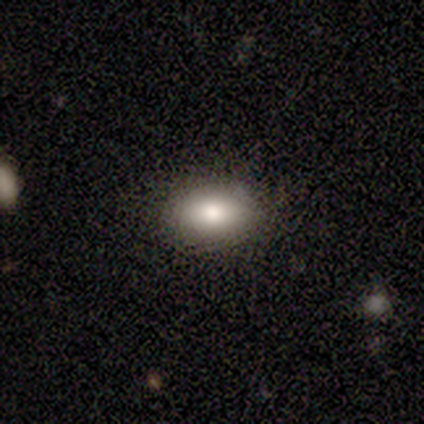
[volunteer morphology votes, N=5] A smooth galaxy with no disk features (100%) that is in between round and cigar-shaped (100%). Merging: none (80%).